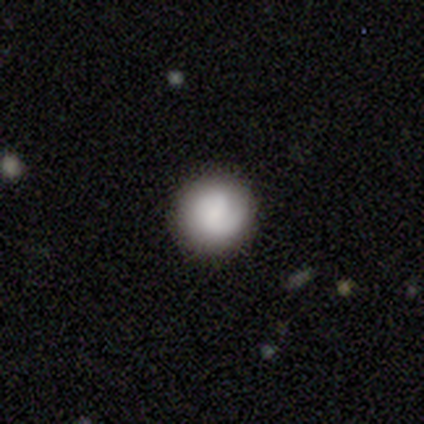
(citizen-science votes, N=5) Q: Smooth or featured?
A: featured or disk (60%); runner-up: smooth (40%)
Q: Edge-on disk?
A: no (100%)
Q: Bar?
A: weak (67%); runner-up: no (33%)
Q: Spiral arms?
A: yes (100%)
Q: Spiral winding?
A: tight (33%); tied with: medium (33%); loose (33%)
Q: Spiral arm count?
A: 1 (67%); runner-up: 2 (33%)
Q: Bulge size?
A: small (67%); runner-up: large (33%)
Q: Merging?
A: none (80%); runner-up: minor disturbance (20%)